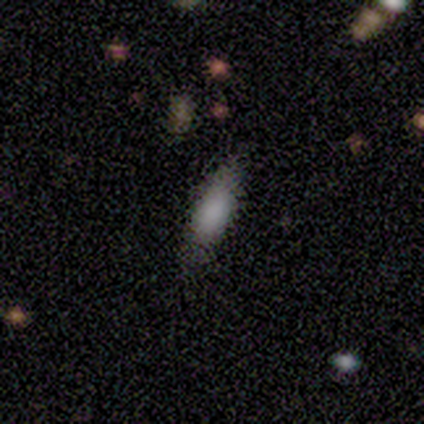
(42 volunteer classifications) smooth_or_featured: smooth (p=0.81) [alt: featured or disk p=0.12]
how_rounded: in between (p=0.53) [alt: cigar-shaped p=0.47]
merging: none (p=0.79) [alt: minor disturbance p=0.13]